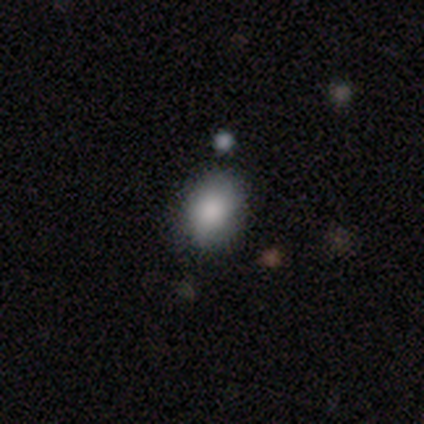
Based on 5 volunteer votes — Smooth or featured? smooth (100%)
How rounded? in between (80%)
Merging? none (80%)